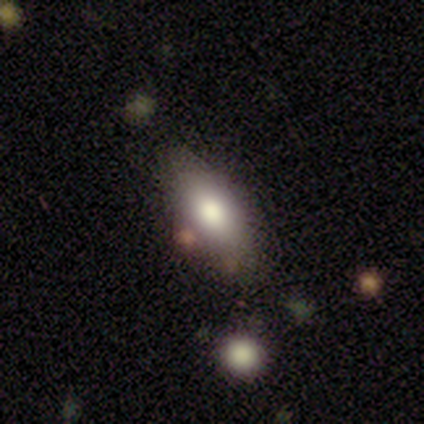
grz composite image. It shows a smooth galaxy with no disk features (60%) that is in between round and cigar-shaped (100%). Merging: none (75%).